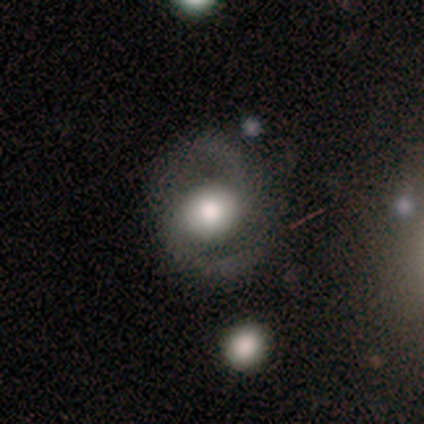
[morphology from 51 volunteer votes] A featured or disk galaxy (73%) with no bar (65%), 2 (100%) medium (62%) spiral arms (86%) and a large central bulge (59%).

Vote fractions:
- Smooth or featured? featured or disk: 73% / smooth: 20% / star or artifact: 8%
- Edge-on disk? no: 100% / yes: 0%
- Bar? no: 65% / weak: 27% / strong: 8%
- Spiral arms? yes: 86% / no: 14%
- Spiral winding? medium: 62% / loose: 25% / tight: 12%
- Spiral arm count? 2: 100% / 1: 0% / 3: 0% / 4: 0% / more than 4: 0% / can't tell: 0%
- Bulge size? large: 59% / moderate: 19% / dominant: 16% / small: 5% / none: 0%
- Merging? none: 70% / minor disturbance: 21% / major disturbance: 9% / merger: 0%